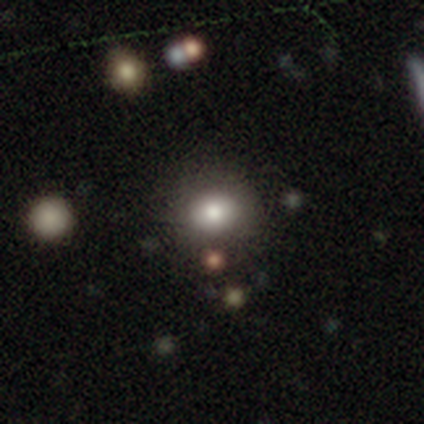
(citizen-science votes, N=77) Q: Smooth or featured?
A: smooth (82%); runner-up: featured or disk (9%)
Q: How rounded?
A: round (71%); runner-up: in between (29%)
Q: Merging?
A: none (40%); runner-up: merger (6%)